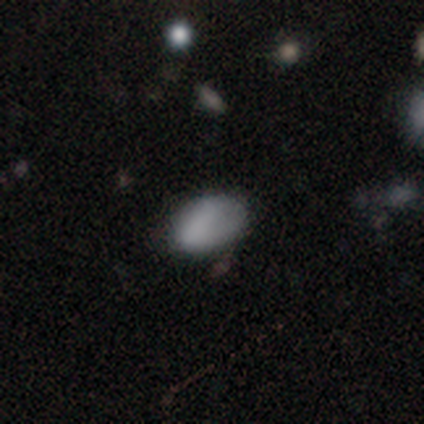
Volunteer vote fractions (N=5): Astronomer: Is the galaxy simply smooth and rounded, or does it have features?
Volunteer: smooth — 60% (runner-up: star or artifact, 40%).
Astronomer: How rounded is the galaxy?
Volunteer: in between — 100%.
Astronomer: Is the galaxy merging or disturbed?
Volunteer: none — 67%.